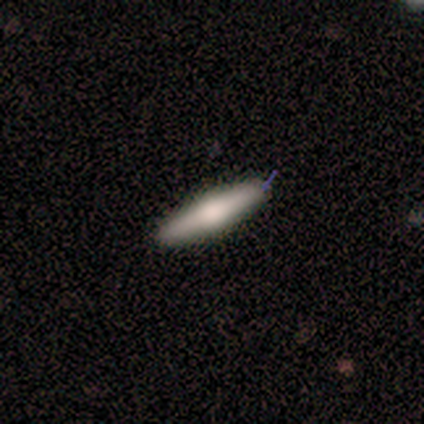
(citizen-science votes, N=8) A featured or disk galaxy (62%) viewed edge-on (100%) with a rounded central bulge (60%). Merging: none (88%).